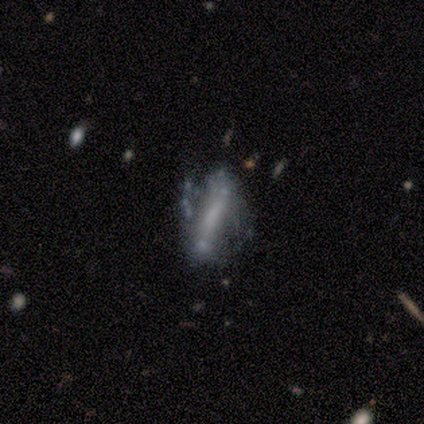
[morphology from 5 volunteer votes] Overall: smooth (40%, tied with featured or disk). How rounded: cigar-shaped (100%). Merging: minor disturbance (50%; none 25%).